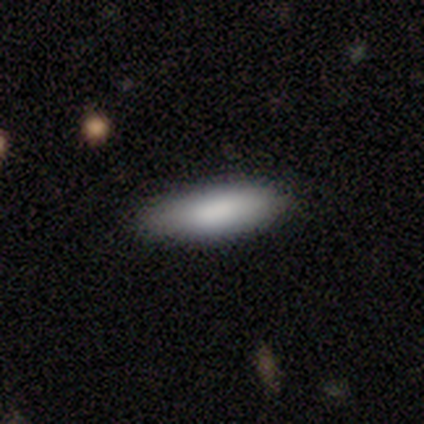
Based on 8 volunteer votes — Smooth or featured?
  - smooth: 88% *
  - featured or disk: 12%
  - star or artifact: 0%
How rounded?
  - cigar-shaped: 57% *
  - in between: 43%
  - round: 0%
Merging?
  - none: 88% *
  - minor disturbance: 12%
  - major disturbance: 0%
  - merger: 0%